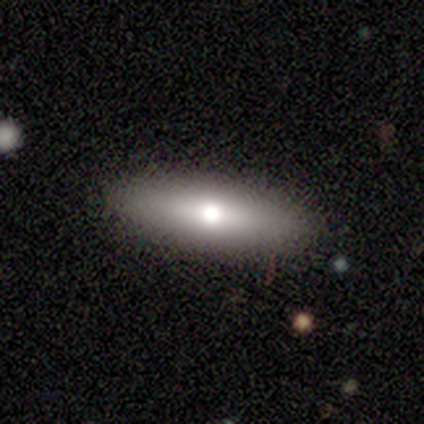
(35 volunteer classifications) smooth-or-featured: smooth: 57% | featured or disk: 34% | star or artifact: 9%
  how-rounded: cigar-shaped: 55% | in between: 45% | round: 0%
  merging: none: 97% | merger: 3% | minor disturbance: 0% | major disturbance: 0%